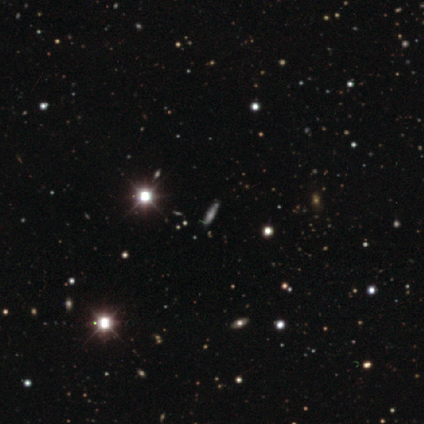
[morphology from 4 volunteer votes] This is possibly a star or artifact rather than a galaxy (50%).